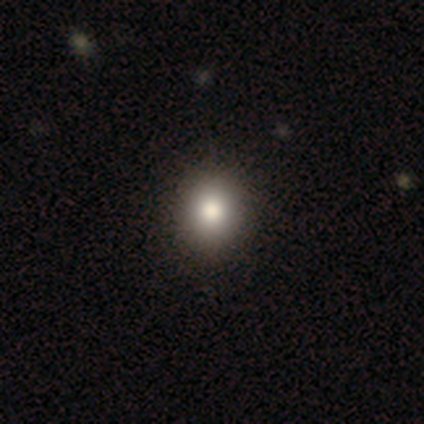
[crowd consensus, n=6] Volunteers were most divided on "smooth or featured": smooth: 67%, featured or disk: 17%, star or artifact: 17%. More confident: merging — none (100%); how rounded — round (75%).